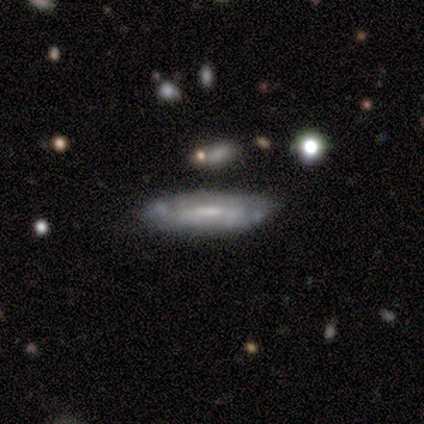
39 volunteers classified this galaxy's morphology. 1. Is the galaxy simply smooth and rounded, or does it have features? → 62% featured or disk, 31% smooth, 8% star or artifact.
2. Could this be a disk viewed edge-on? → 62% no, 38% yes.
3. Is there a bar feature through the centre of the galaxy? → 53% no, 33% weak, 13% strong.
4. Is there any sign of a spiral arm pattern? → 53% no, 47% yes.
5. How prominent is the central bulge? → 47% small, 33% moderate, 20% none, 0% dominant, 0% large.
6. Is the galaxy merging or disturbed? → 69% none, 22% minor disturbance, 6% major disturbance, 3% merger.